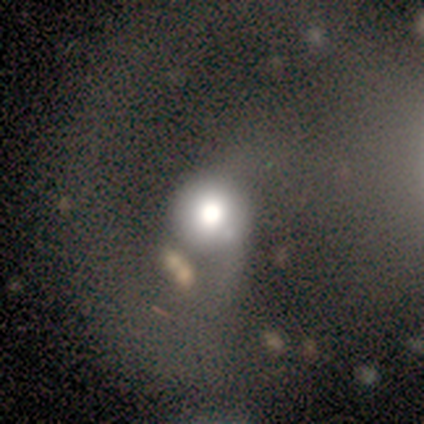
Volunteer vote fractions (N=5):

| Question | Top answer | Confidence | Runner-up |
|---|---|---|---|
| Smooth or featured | star or artifact | 60% | smooth (20%) |